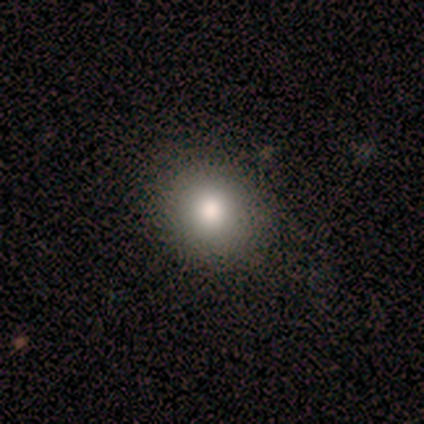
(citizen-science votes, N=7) A smooth galaxy with no disk features (71%) that is round (60%).

Vote fractions:
- Smooth or featured? smooth: 71% / star or artifact: 29% / featured or disk: 0%
- How rounded? round: 60% / in between: 40% / cigar-shaped: 0%
- Merging? none: 100% / minor disturbance: 0% / major disturbance: 0% / merger: 0%